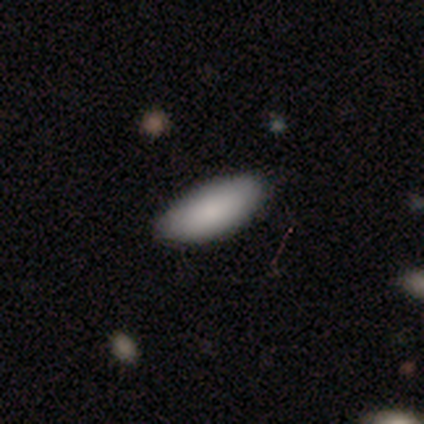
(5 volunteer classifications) smooth_or_featured: smooth (p=0.80) [alt: featured or disk p=0.20]
how_rounded: in between (p=1.00)
merging: none (p=0.80) [alt: minor disturbance p=0.20]